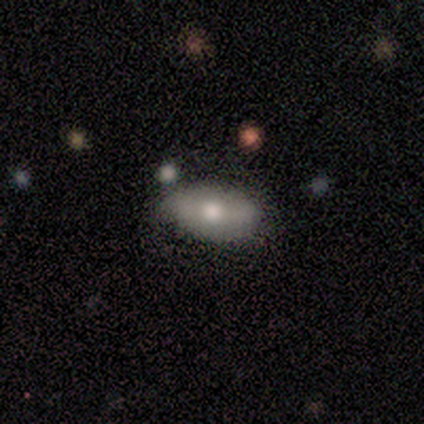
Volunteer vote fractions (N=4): Morphology: type=star or artifact (50%).